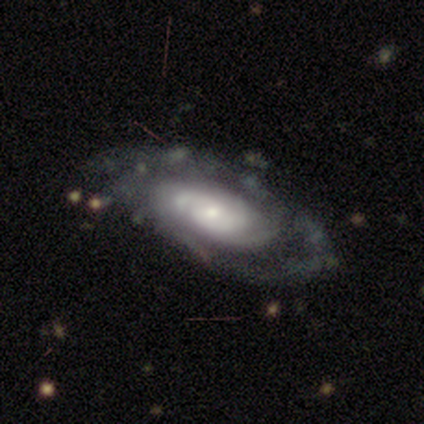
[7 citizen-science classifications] Q: Smooth or featured?
A: featured or disk (86%); runner-up: star or artifact (14%)
Q: Edge-on disk?
A: no (83%); runner-up: yes (17%)
Q: Bar?
A: no (100%)
Q: Spiral arms?
A: yes (80%); runner-up: no (20%)
Q: Spiral winding?
A: tight (50%); tied with: medium (50%)
Q: Spiral arm count?
A: 2 (50%); runner-up: 3 (25%)
Q: Bulge size?
A: small (100%)
Q: Merging?
A: none (100%)